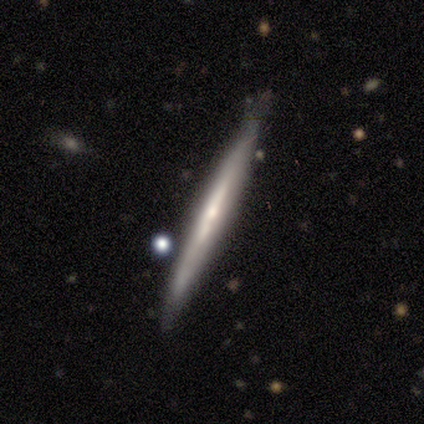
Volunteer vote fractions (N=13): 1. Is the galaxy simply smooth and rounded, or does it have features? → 85% featured or disk, 15% smooth, 0% star or artifact.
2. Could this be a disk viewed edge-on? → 91% yes, 9% no.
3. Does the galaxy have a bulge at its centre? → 60% rounded, 40% none, 0% boxy.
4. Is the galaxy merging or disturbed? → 92% none, 8% minor disturbance, 0% major disturbance, 0% merger.